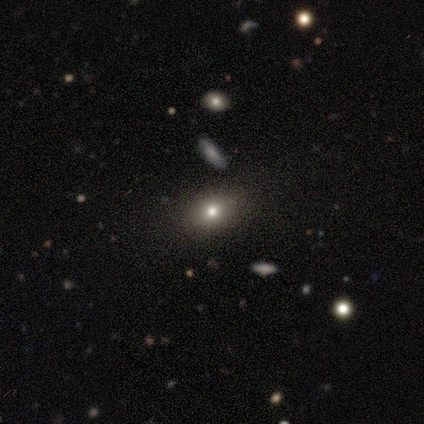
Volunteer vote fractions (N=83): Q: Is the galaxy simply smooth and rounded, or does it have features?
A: smooth — 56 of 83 (67%).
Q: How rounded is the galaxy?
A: in between — 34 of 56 (61%).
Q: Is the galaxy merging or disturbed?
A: none — 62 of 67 (93%).